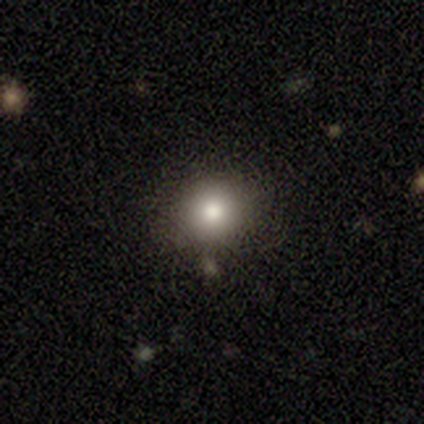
Smooth or featured?
  - smooth: 80% *
  - star or artifact: 20%
  - featured or disk: 0%
How rounded?
  - round: 50% * (tied)
  - in between: 50% * (tied)
  - cigar-shaped: 0%
Merging?
  - none: 75% *
  - minor disturbance: 25%
  - major disturbance: 0%
  - merger: 0%